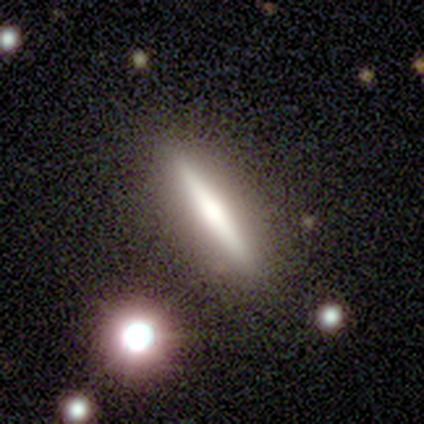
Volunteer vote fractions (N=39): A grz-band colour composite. It shows a featured or disk galaxy (51%) viewed edge-on (100%) with a rounded central bulge (60%). Merging: none (89%).